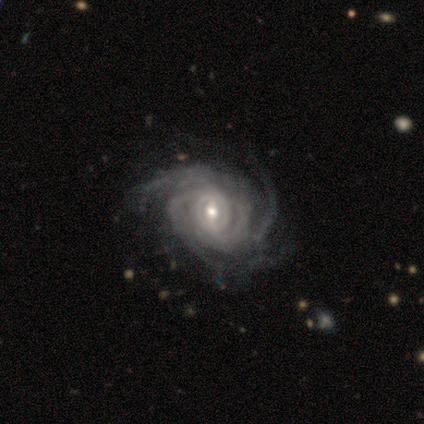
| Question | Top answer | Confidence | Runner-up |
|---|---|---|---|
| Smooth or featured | featured or disk | 100% | — |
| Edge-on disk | no | 100% | — |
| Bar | weak | 60% | strong (20%) |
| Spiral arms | yes | 100% | — |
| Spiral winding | tight | 40% | tied: medium (40%) |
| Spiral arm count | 3 | 40% | tied: 4 (40%) |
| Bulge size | moderate | 80% | small (20%) |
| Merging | minor disturbance | 60% | none (40%) |